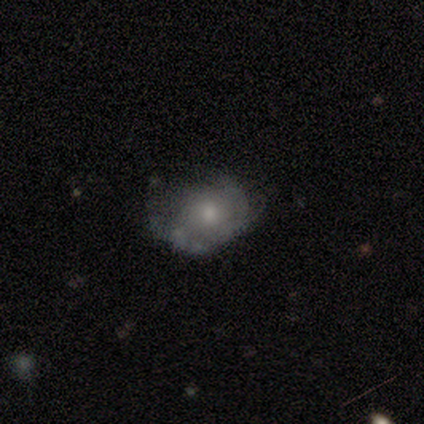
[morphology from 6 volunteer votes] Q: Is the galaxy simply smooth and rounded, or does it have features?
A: smooth — 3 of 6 (50%, tied with featured or disk).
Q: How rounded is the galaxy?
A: in between — 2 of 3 (67%).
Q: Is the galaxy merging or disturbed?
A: none — 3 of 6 (50%).